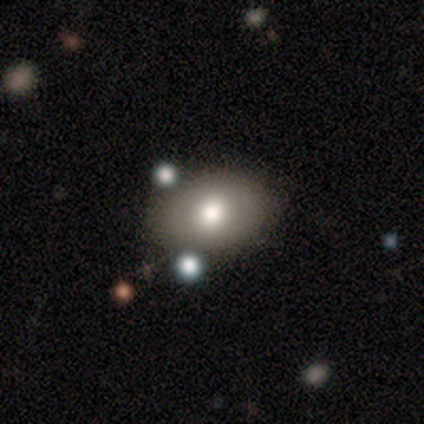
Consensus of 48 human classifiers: Q: Smooth or featured?
A: smooth (81%); runner-up: featured or disk (15%)
Q: How rounded?
A: in between (82%); runner-up: round (13%)
Q: Merging?
A: none (74%); runner-up: minor disturbance (11%)